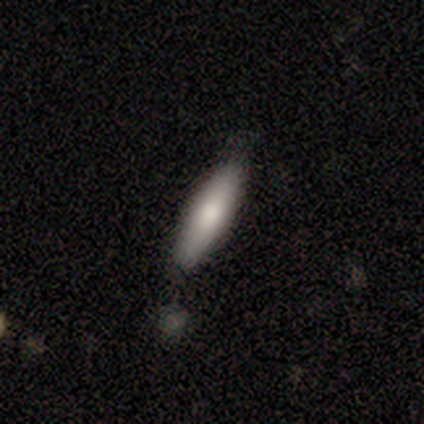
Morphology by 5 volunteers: Smooth or featured?
  - smooth: 100% *
  - featured or disk: 0%
  - star or artifact: 0%
How rounded?
  - cigar-shaped: 60% *
  - in between: 40%
  - round: 0%
Merging?
  - minor disturbance: 60% *
  - none: 40%
  - major disturbance: 0%
  - merger: 0%